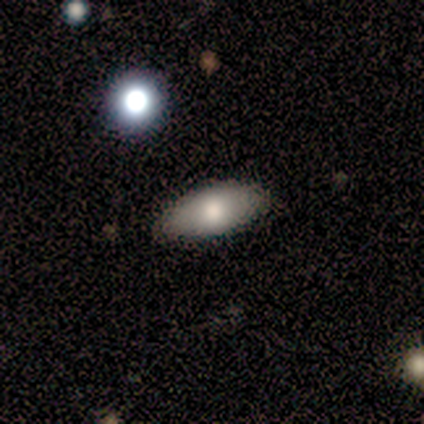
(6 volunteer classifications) A smooth galaxy with no disk features (83%) that is in between round and cigar-shaped (80%). Merging: none (80%).